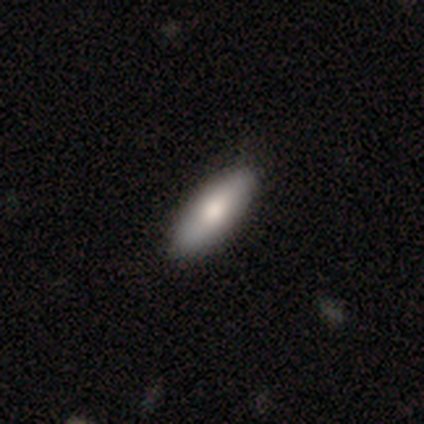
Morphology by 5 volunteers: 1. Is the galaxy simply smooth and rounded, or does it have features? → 80% smooth, 20% star or artifact, 0% featured or disk.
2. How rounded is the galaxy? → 100% in between, 0% round, 0% cigar-shaped.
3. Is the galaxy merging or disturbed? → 50% none, 25% minor disturbance, 25% major disturbance, 0% merger.